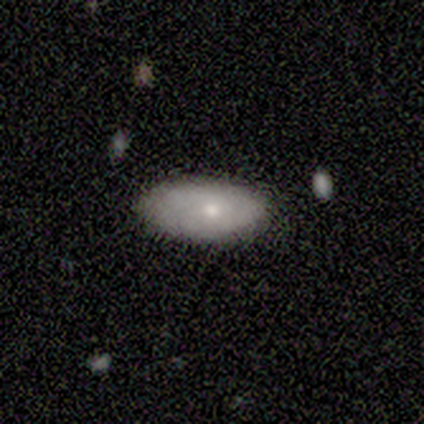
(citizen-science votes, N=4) A smooth galaxy with no disk features (100%) that is in between round and cigar-shaped (100%).

Vote fractions:
- Smooth or featured? smooth: 100% / featured or disk: 0% / star or artifact: 0%
- How rounded? in between: 100% / round: 0% / cigar-shaped: 0%
- Merging? none: 100% / minor disturbance: 0% / major disturbance: 0% / merger: 0%